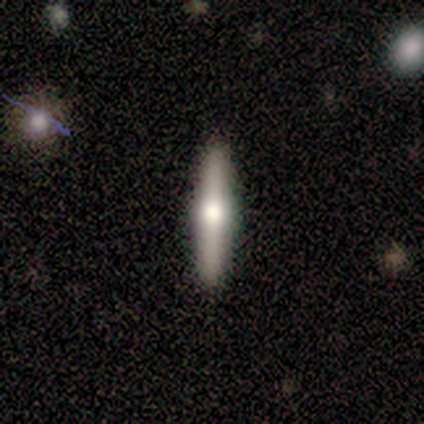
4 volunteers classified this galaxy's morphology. Smooth or featured: featured or disk — 75% (smooth — 25%)
Edge-on disk: yes — 100%
Edge-on bulge: rounded — 100%
Merging: none — 100%